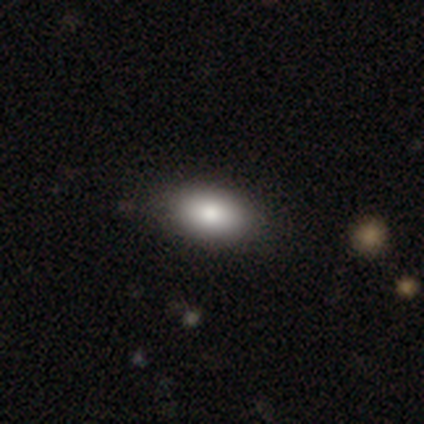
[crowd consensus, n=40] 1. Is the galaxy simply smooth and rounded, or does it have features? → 82% smooth, 12% featured or disk, 5% star or artifact.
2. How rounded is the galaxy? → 97% in between, 3% round, 0% cigar-shaped.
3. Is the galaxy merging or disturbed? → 58% none, 5% minor disturbance, 0% major disturbance, 0% merger.